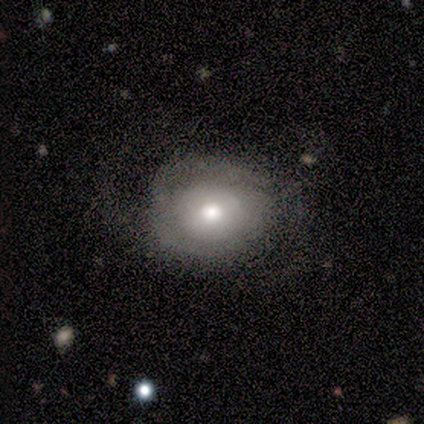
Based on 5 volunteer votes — Overall: smooth (40%, tied with featured or disk). How rounded: round (100%). Merging: none (75%).